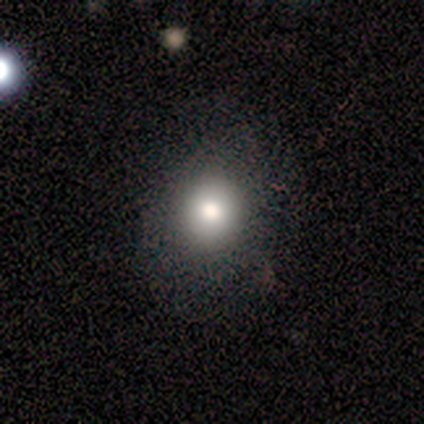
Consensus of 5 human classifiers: Smooth or featured? smooth (100%)
How rounded? round (100%)
Merging? none (100%)